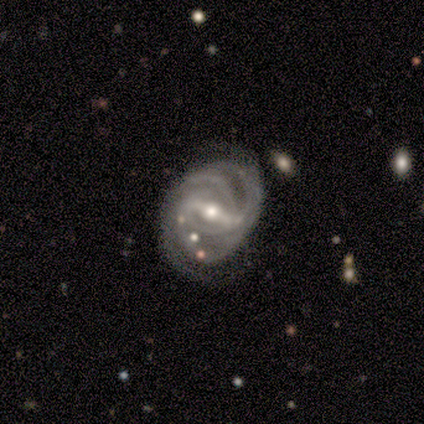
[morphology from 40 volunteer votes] Volunteers were most divided on "spiral arm count": 2: 32%, 3: 27%, can't tell: 27%, more than 4: 8%, 4: 5%, 1: 0%. More confident: edge-on disk — no (100%); spiral arms — yes (100%); smooth or featured — featured or disk (92%); bulge size — moderate (78%); bar — strong (76%); spiral winding — tight (68%); merging — none (62%).